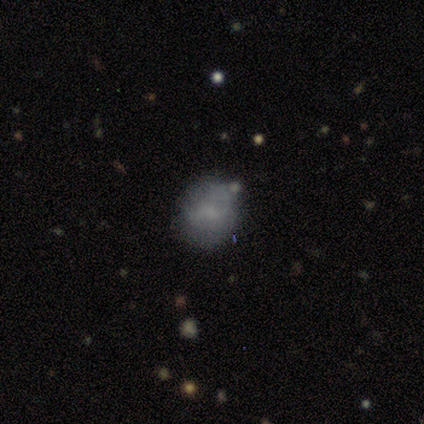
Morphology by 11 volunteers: Smooth or featured?
  - smooth: 73% *
  - featured or disk: 18%
  - star or artifact: 9%
How rounded?
  - round: 62% *
  - in between: 38%
  - cigar-shaped: 0%
Merging?
  - none: 80% *
  - minor disturbance: 10%
  - major disturbance: 10%
  - merger: 0%